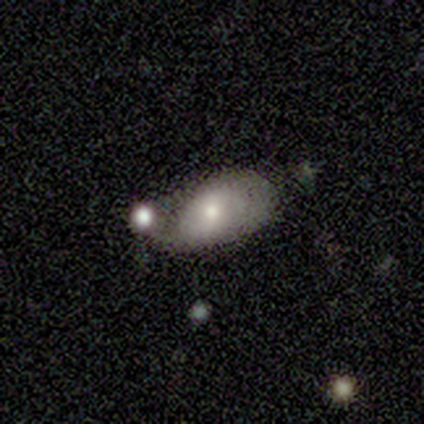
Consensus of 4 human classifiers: Morphology: type=smooth (50%); roundness=in between (100%); merging=merger (67%).